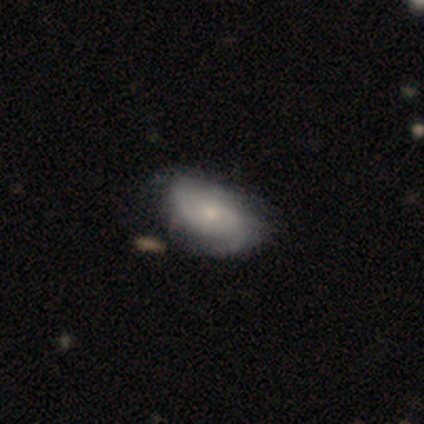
Overall: featured or disk (100%). Edge-on disk: no (100%). Bar: no (75%). Spiral arms: yes (75%). Spiral arm count: 2 (100%). Spiral winding: tight (100%). Bulge size: small (75%). Merging: minor disturbance (75%).